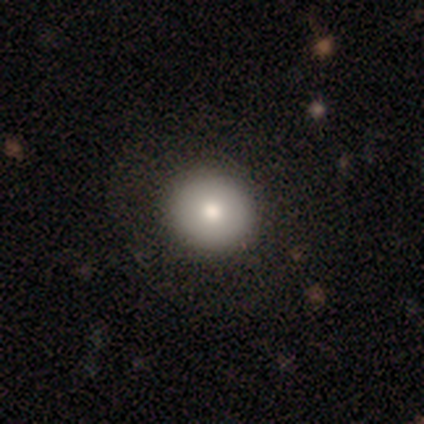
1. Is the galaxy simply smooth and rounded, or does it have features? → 90% smooth, 8% featured or disk, 2% star or artifact.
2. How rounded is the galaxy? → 94% round, 6% in between, 0% cigar-shaped.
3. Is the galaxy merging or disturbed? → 74% none, 3% minor disturbance, 0% major disturbance, 0% merger.